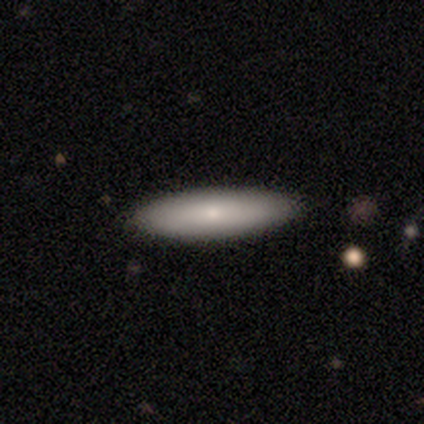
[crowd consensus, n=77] Smooth or featured? 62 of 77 (81%) said smooth. How rounded? 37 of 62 (60%) said cigar-shaped. Merging? 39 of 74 (53%) said none.